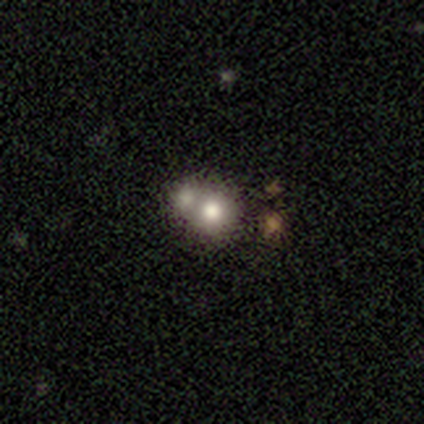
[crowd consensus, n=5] A smooth galaxy with no disk features (80%) that is round (50%, tied with in between). Merging: merger (100%).